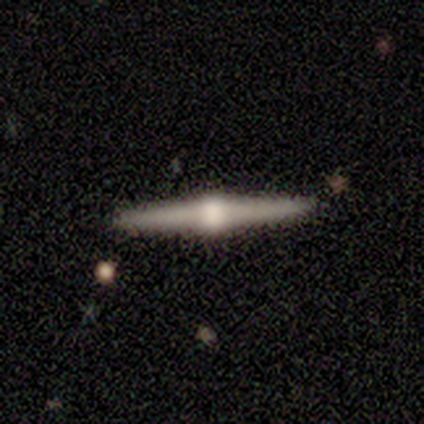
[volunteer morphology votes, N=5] This appears to be a featured or disk galaxy (100%) viewed edge-on (100%) with a rounded central bulge (100%). Merging: none (100%).